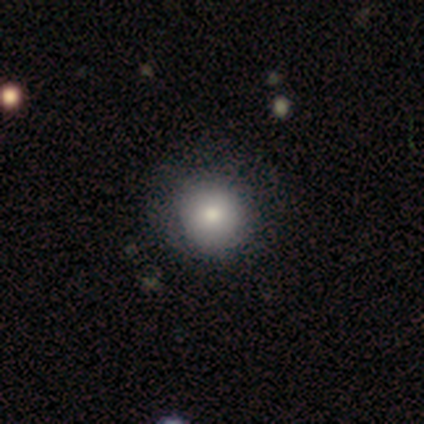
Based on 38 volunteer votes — Morphology: type=smooth (84%); roundness=round (91%); merging=none (67%).